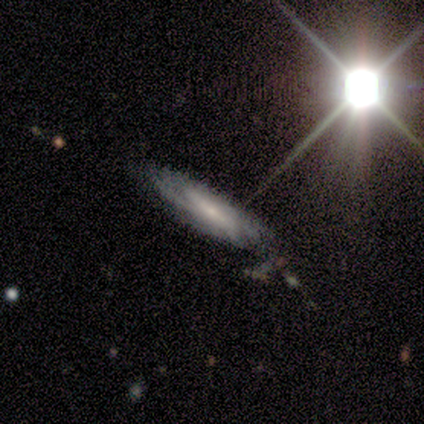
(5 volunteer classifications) This is clearly a featured or disk galaxy (100%). It is clearly not viewed edge-on (100%). Bar: marginally weak (40%, tied with no). Spiral arm pattern: clearly yes (100%). Spiral arm count: clearly can't tell (80%). Spiral winding: likely medium (60%). Central bulge: clearly small (80%). Merging: likely none (60%).